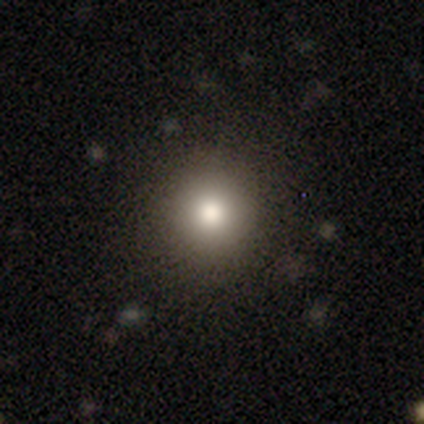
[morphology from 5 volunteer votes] Smooth or featured: smooth — 100%
How rounded: round — 100%
Merging: none — 100%